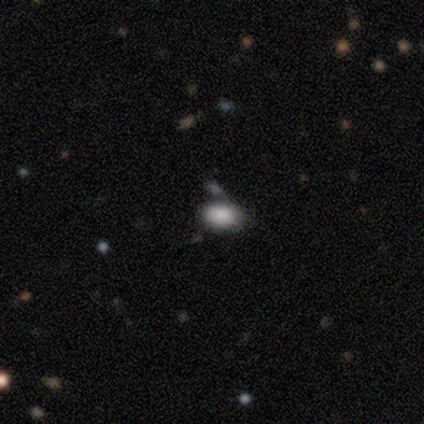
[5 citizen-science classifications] smooth-or-featured: smooth: 100% | featured or disk: 0% | star or artifact: 0%
  how-rounded: in between: 80% | round: 20% | cigar-shaped: 0%
  merging: none: 80% | minor disturbance: 20% | major disturbance: 0% | merger: 0%